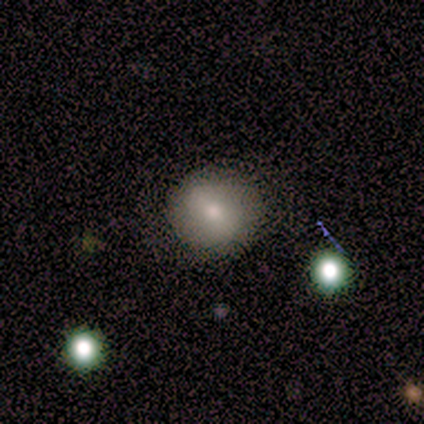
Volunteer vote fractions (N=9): A smooth galaxy with no disk features (78%) that is round (100%).

Vote fractions:
- Smooth or featured? smooth: 78% / featured or disk: 11% / star or artifact: 11%
- How rounded? round: 100% / in between: 0% / cigar-shaped: 0%
- Merging? none: 88% / minor disturbance: 12% / major disturbance: 0% / merger: 0%